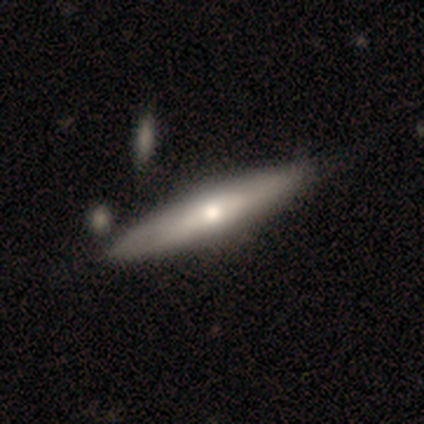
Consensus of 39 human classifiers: Volunteers were most divided on "smooth or featured": featured or disk: 49%, smooth: 46%, star or artifact: 5%. Remaining: edge-on disk — yes (89%); edge-on bulge — rounded (88%); merging — none (32%).